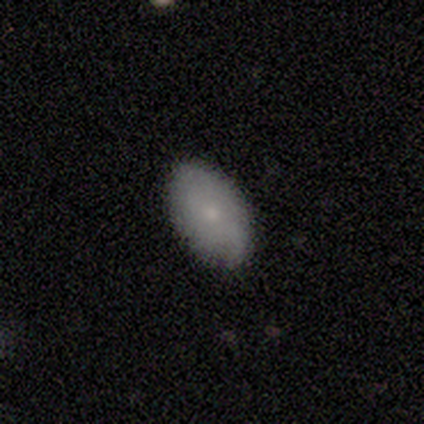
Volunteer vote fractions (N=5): Smooth or featured? smooth (80%)
How rounded? in between (100%)
Merging? none (80%)